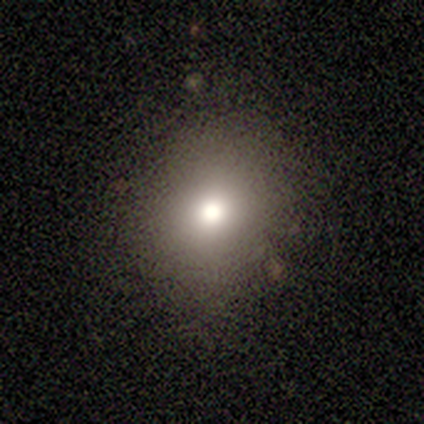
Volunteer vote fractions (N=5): Smooth or featured: smooth — 40% (tied with star or artifact — 40%)
How rounded: round — 50% (tied with in between — 50%)
Merging: none — 67% (minor disturbance — 33%)